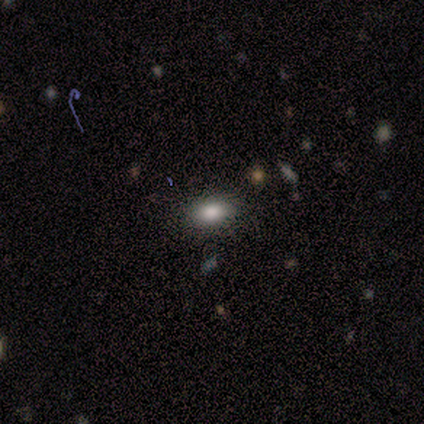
Smooth or featured? smooth (60%)
How rounded? in between (100%)
Merging? none (100%)